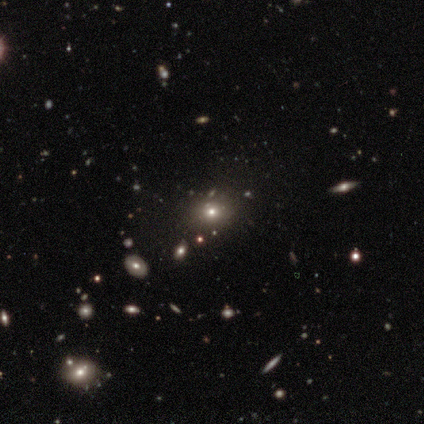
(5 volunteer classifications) Smooth or featured? 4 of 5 (80%) said smooth. How rounded? 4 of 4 (100%) said round. Merging? 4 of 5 (80%) said none.